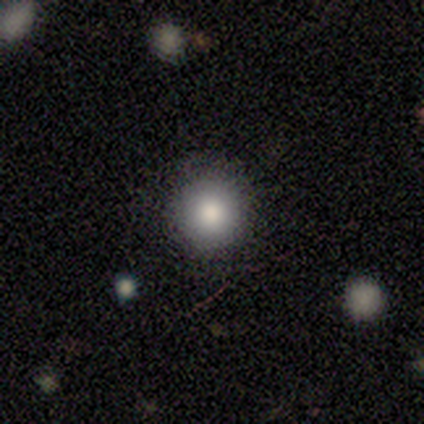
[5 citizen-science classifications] Smooth or featured: smooth — 100%
How rounded: round — 100%
Merging: none — 100%